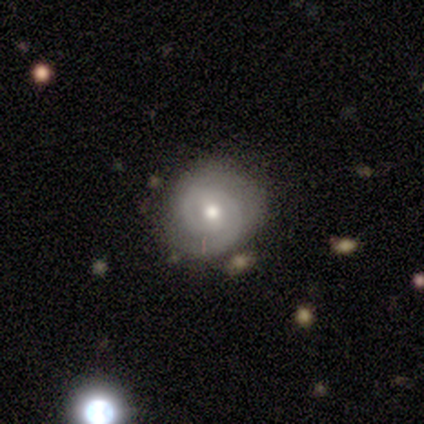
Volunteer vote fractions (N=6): featured or disk 83%, smooth 17%, star or artifact 0%. Down the decision tree: edge-on disk — no (100%); bar — weak (80%); spiral arms — yes (100%); spiral arm count — 2 (60%); spiral winding — tight (80%); bulge size — moderate (80%); merging — none (50%, tied with minor disturbance).